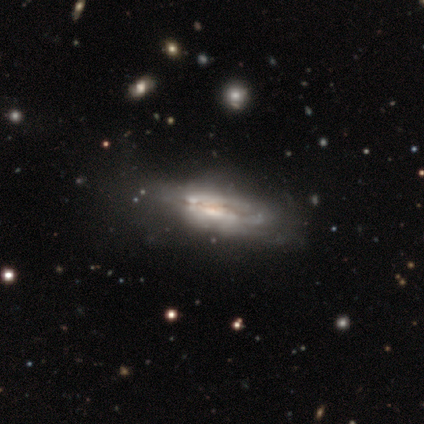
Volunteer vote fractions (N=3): Smooth or featured? 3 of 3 (100%) said featured or disk. Edge-on disk? 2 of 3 (67%) said no. Bar? 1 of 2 (50%, tied with no) said strong. Spiral arms? 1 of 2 (50%, tied with no) said yes. Spiral winding? 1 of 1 (100%) said medium. Spiral arm count? 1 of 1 (100%) said can't tell. Bulge size? 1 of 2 (50%, tied with none) said moderate. Merging? 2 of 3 (67%) said major disturbance.